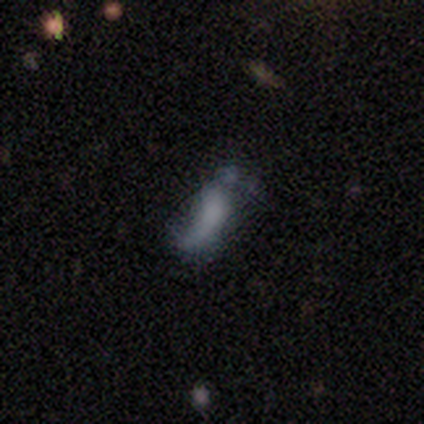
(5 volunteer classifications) Q: Smooth or featured?
A: star or artifact (60%); runner-up: smooth (20%)